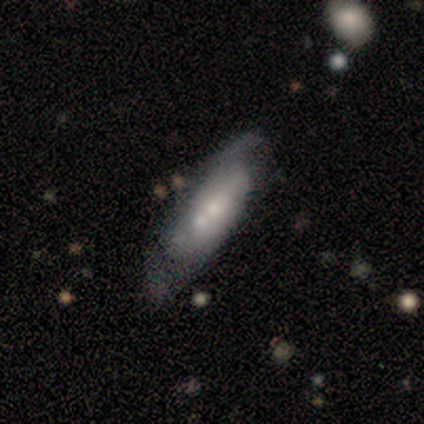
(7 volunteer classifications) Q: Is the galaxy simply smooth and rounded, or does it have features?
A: featured or disk — 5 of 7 (71%).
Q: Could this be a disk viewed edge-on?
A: no — 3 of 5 (60%).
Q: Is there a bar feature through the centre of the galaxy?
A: no — 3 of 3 (100%).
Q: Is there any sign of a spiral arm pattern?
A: yes — 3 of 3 (100%).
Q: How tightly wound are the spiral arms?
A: tight — 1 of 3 (33%, tied with medium and loose).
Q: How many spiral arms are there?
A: can't tell — 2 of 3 (67%).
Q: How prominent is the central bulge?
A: small — 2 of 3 (67%).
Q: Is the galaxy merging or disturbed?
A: none — 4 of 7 (57%).